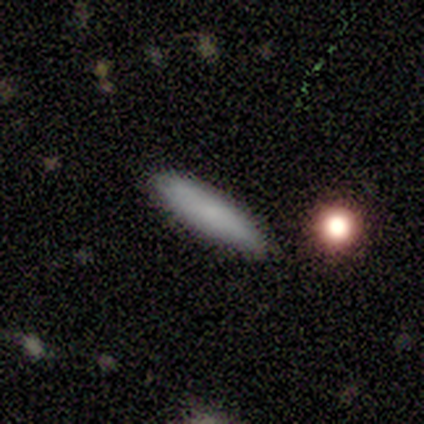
Morphology: type=smooth (100%); roundness=cigar-shaped (100%); merging=none (100%).